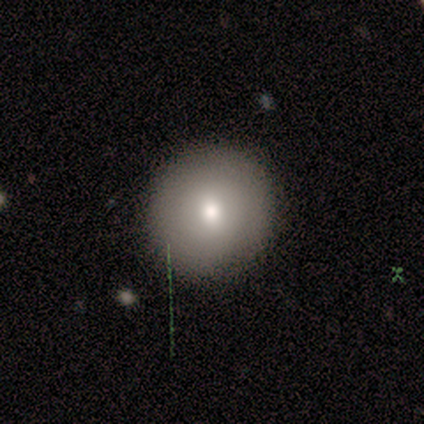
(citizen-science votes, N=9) This is likely a smooth galaxy (67%). How rounded: clearly round (100%). Merging: clearly none (100%).